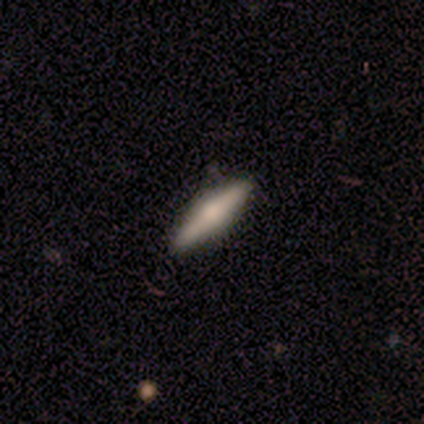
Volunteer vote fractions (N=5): Smooth or featured? 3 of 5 (60%) said smooth. How rounded? 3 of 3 (100%) said cigar-shaped. Merging? 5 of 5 (100%) said none.